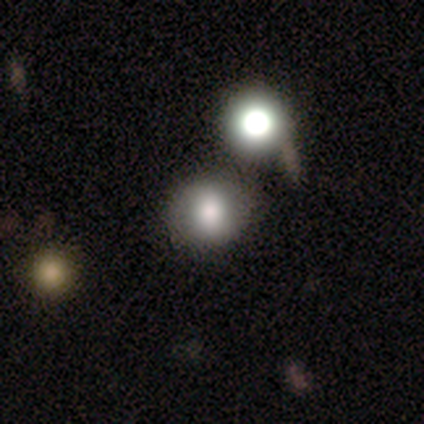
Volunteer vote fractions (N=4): A smooth galaxy with no disk features (50%) that is round (100%). Merging: none (100%).